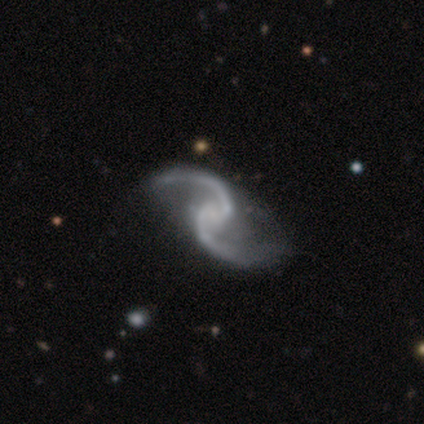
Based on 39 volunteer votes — A featured or disk galaxy (100%) with no bar (54%), 2 (100%) loose (85%) spiral arms (100%) and no central bulge (56%).

Vote fractions:
- Smooth or featured? featured or disk: 100% / smooth: 0% / star or artifact: 0%
- Edge-on disk? no: 100% / yes: 0%
- Bar? no: 54% / weak: 33% / strong: 13%
- Spiral arms? yes: 100% / no: 0%
- Spiral winding? loose: 85% / medium: 15% / tight: 0%
- Spiral arm count? 2: 100% / 1: 0% / 3: 0% / 4: 0% / more than 4: 0% / can't tell: 0%
- Bulge size? none: 56% / small: 33% / moderate: 10% / dominant: 0% / large: 0%
- Merging? none: 49% / minor disturbance: 15% / major disturbance: 8% / merger: 0%